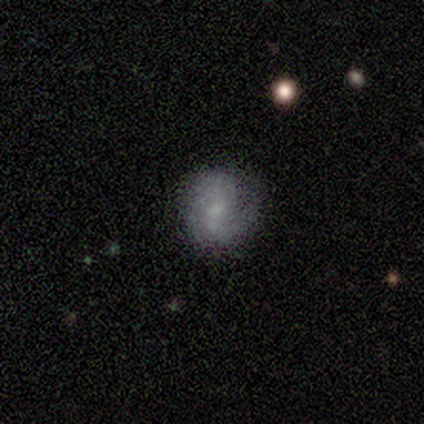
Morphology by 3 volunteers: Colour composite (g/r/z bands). It shows a featured or disk galaxy (100%) with a weak bar (67%), 2 (100%) tight (50%, tied with medium) spiral arms (67%) and a small central bulge (67%). Merging: none (33%, tied with minor disturbance and major disturbance).